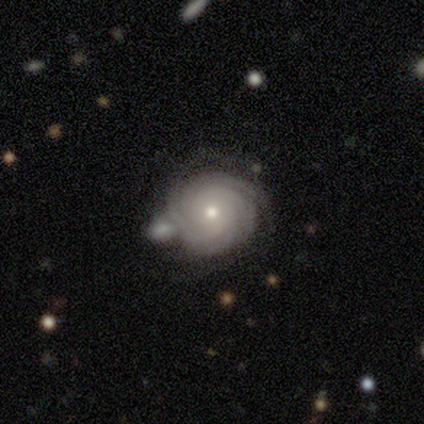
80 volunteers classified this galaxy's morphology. This appears to be a featured or disk galaxy (94%) with no bar (85%), tight (90%) spiral arms (99%) and a moderate central bulge (50%). Merging: none (33%).